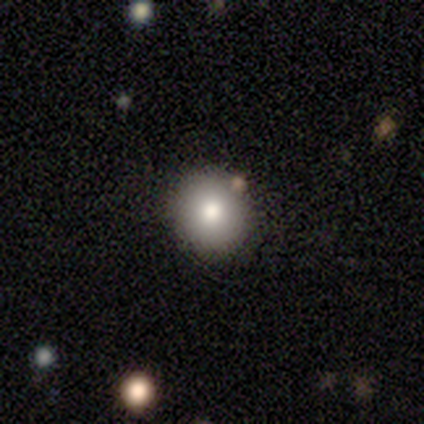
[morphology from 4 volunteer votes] This appears to be a smooth galaxy with no disk features (50%) that is round (100%). Merging: none (100%).